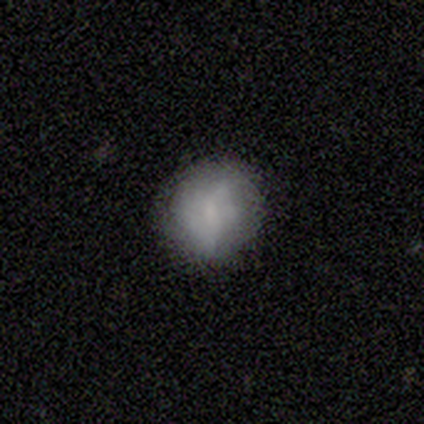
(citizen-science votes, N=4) Morphology: type=smooth (75%); roundness=round (100%); merging=none (75%).